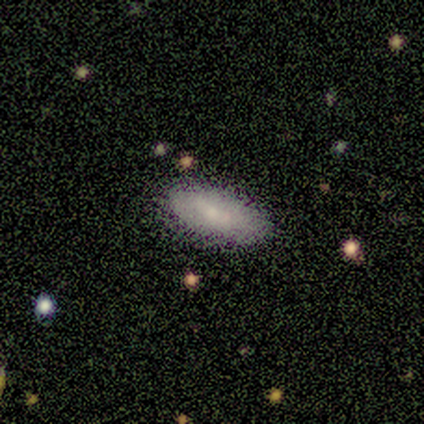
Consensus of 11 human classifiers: Morphology: type=smooth (82%); roundness=in between (100%); merging=none (80%).